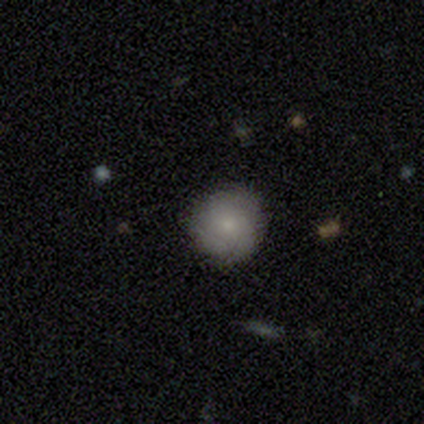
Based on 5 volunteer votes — Smooth or featured?
  - smooth: 100% *
  - featured or disk: 0%
  - star or artifact: 0%
How rounded?
  - round: 100% *
  - in between: 0%
  - cigar-shaped: 0%
Merging?
  - none: 100% *
  - minor disturbance: 0%
  - major disturbance: 0%
  - merger: 0%